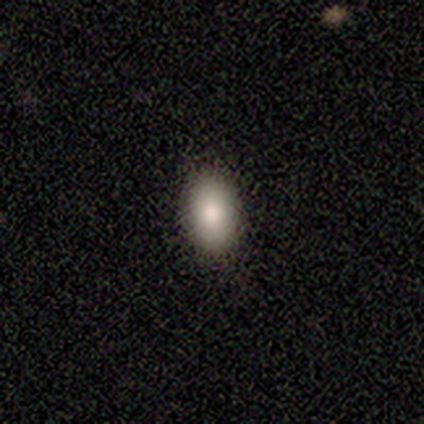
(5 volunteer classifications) Overall: smooth (100%). How rounded: in between (100%). Merging: none (100%).